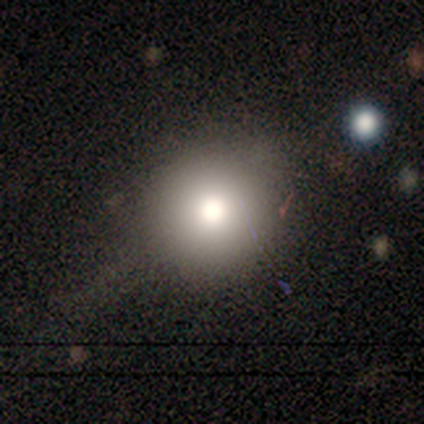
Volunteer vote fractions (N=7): This is clearly a smooth galaxy (100%). How rounded: clearly round (100%). Merging: clearly none (100%).